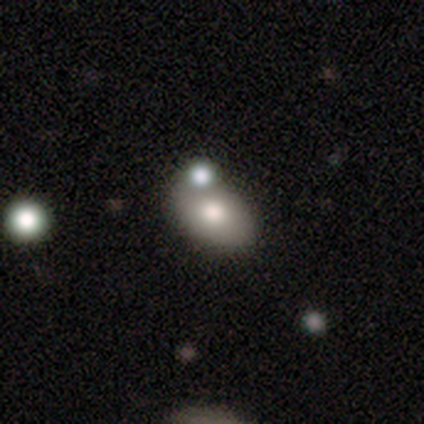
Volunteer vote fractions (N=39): Smooth or featured: smooth — 79% (star or artifact — 13%)
How rounded: in between — 81% (round — 19%)
Merging: none — 47% (merger — 35%)